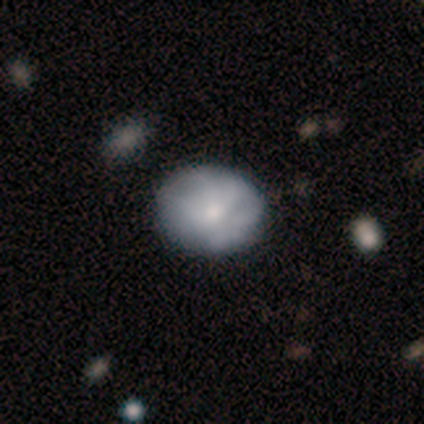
Smooth or featured: smooth — 49% (featured or disk — 46%)
How rounded: round — 50% (tied with in between — 50%)
Merging: none — 49% (minor disturbance — 9%)